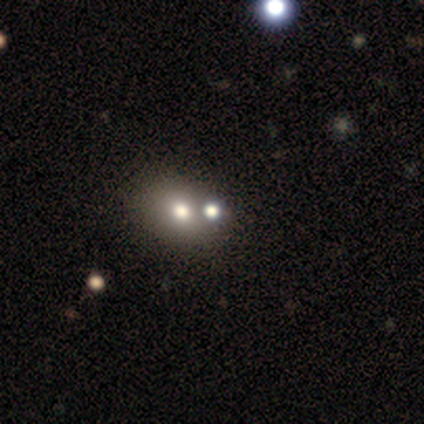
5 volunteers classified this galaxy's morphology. Overall: smooth (60%; star or artifact 40%). How rounded: in between (67%; round 33%). Merging: merger (67%; none 33%).